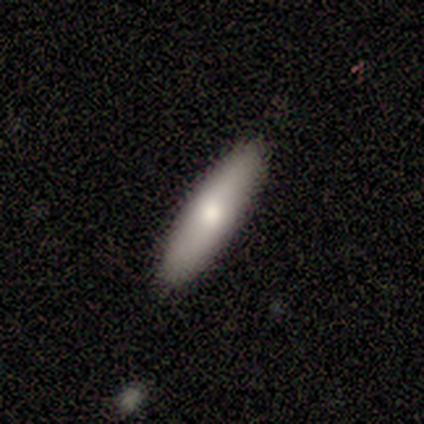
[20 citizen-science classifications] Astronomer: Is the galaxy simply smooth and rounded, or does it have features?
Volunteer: smooth — 75%.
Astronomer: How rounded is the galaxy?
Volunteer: cigar-shaped — 73%.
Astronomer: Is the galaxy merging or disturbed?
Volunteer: none — 90%.